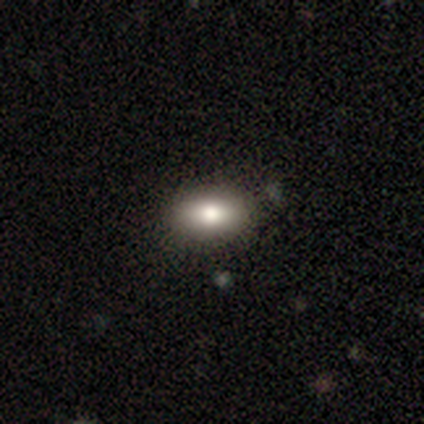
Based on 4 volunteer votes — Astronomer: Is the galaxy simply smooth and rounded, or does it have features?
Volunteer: smooth — 75%.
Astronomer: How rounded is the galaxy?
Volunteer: in between — 67%.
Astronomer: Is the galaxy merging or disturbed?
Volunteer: none — 75%.